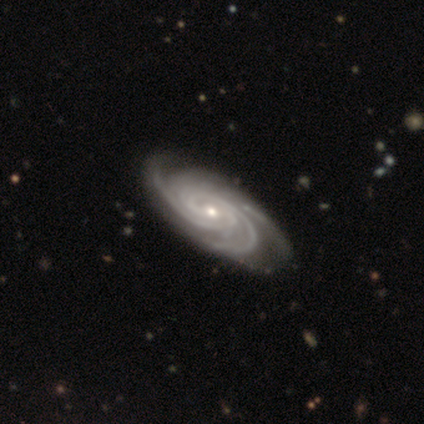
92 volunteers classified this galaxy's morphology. smooth_or_featured: featured or disk (p=0.95) [alt: star or artifact p=0.04]
disk_edge_on: no (p=0.97) [alt: yes p=0.03]
bar: no (p=0.60) [alt: weak p=0.33]
has_spiral_arms: yes (p=1.00)
spiral_winding: tight (p=0.74) [alt: medium p=0.23]
spiral_arm_count: 3 (p=0.48) [alt: 4 p=0.23]
bulge_size: small (p=0.63) [alt: moderate p=0.33]
merging: none (p=0.89) [alt: minor disturbance p=0.07]